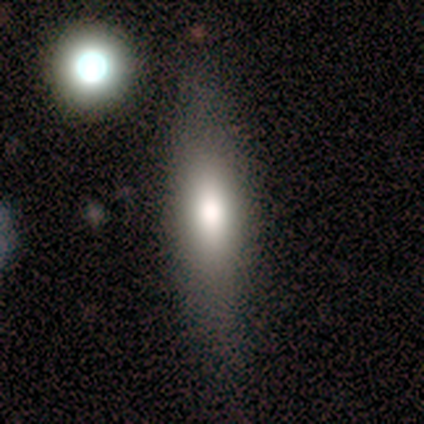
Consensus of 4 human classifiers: Smooth or featured?
  - smooth: 100% *
  - featured or disk: 0%
  - star or artifact: 0%
How rounded?
  - round: 50% *
  - in between: 25%
  - cigar-shaped: 25%
Merging?
  - none: 75% *
  - minor disturbance: 25%
  - major disturbance: 0%
  - merger: 0%